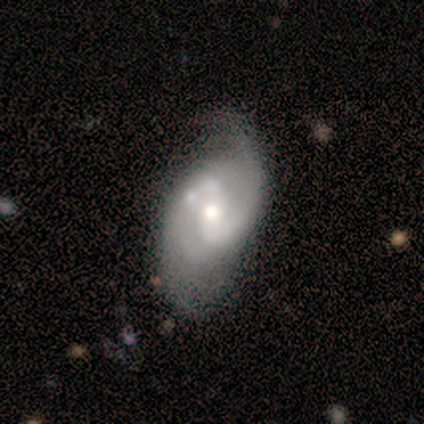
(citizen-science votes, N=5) Q: Smooth or featured?
A: featured or disk (100%)
Q: Edge-on disk?
A: no (100%)
Q: Bar?
A: weak (40%); tied with: no (40%)
Q: Spiral arms?
A: yes (100%)
Q: Spiral winding?
A: tight (40%); tied with: loose (40%)
Q: Spiral arm count?
A: 2 (60%); runner-up: can't tell (40%)
Q: Bulge size?
A: moderate (80%); runner-up: small (20%)
Q: Merging?
A: none (40%); tied with: minor disturbance (40%)